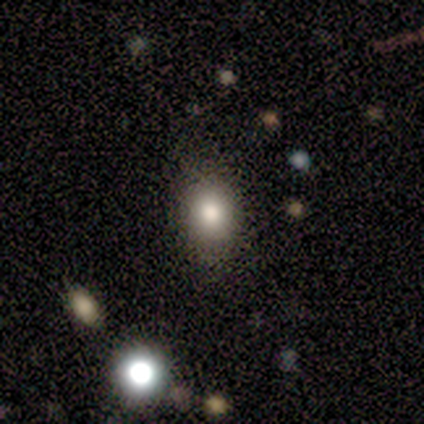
smooth_or_featured: smooth (p=0.80) [alt: featured or disk p=0.20]
how_rounded: in between (p=1.00)
merging: none (p=1.00)